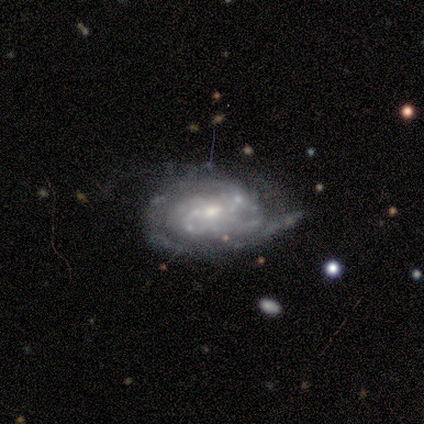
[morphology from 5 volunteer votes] featured or disk 100%, smooth 0%, star or artifact 0%. Down the decision tree: edge-on disk — no (100%); bar — no (60%); spiral arms — yes (100%); spiral arm count — 1 (40%); spiral winding — tight (80%); bulge size — small (60%); merging — none (40%, tied with minor disturbance).